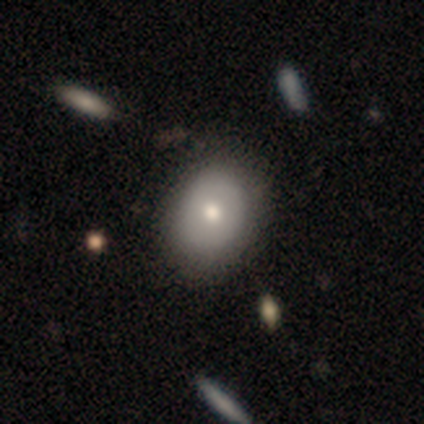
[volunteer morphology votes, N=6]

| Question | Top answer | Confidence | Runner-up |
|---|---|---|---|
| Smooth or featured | smooth | 67% | featured or disk (33%) |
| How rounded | round | 50% | tied: in between (50%) |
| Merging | none | 67% | minor disturbance (33%) |